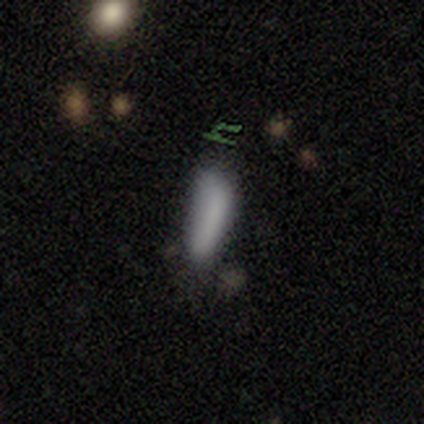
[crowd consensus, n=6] Smooth or featured? 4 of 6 (67%) said smooth. How rounded? 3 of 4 (75%) said cigar-shaped. Merging? 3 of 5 (60%) said none.